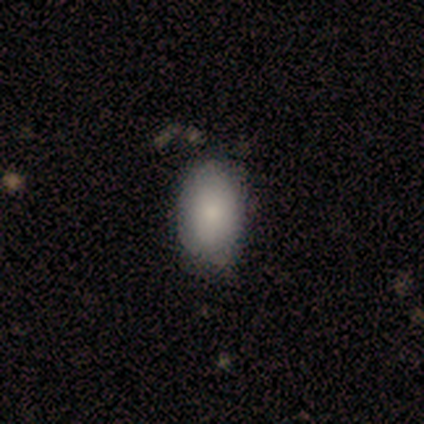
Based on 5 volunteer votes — Smooth or featured? smooth (100%)
How rounded? in between (60%)
Merging? none (80%)